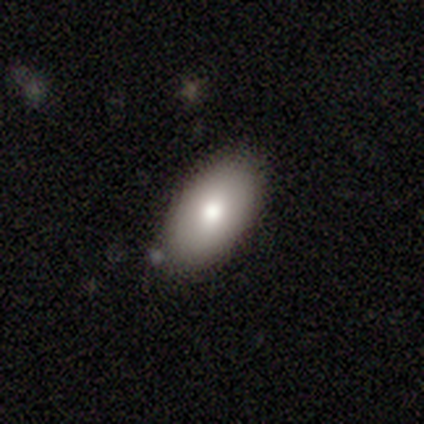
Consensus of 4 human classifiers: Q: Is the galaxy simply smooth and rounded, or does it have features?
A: smooth — 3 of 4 (75%).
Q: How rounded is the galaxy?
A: in between — 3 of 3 (100%).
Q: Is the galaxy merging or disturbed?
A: none — 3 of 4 (75%).